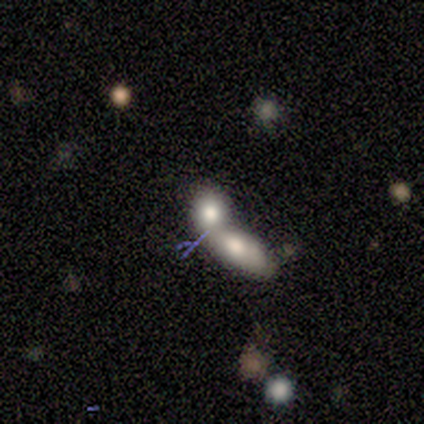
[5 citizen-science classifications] This appears to be a featured or disk galaxy (60%) with no bar (100%), no spiral arms (100%) and a large central bulge (33%, tied with moderate and small). Merging: merger (67%).